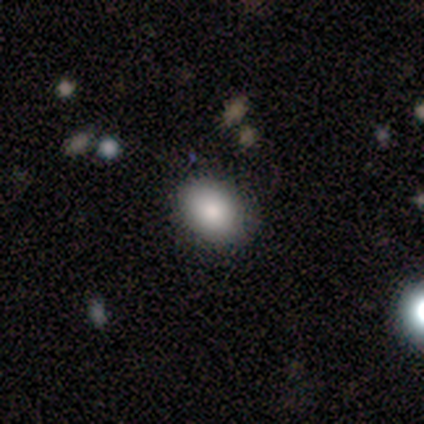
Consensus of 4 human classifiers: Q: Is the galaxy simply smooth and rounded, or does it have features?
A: smooth — 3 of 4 (75%).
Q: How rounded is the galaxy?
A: in between — 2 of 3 (67%).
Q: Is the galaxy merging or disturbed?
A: none — 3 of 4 (75%).